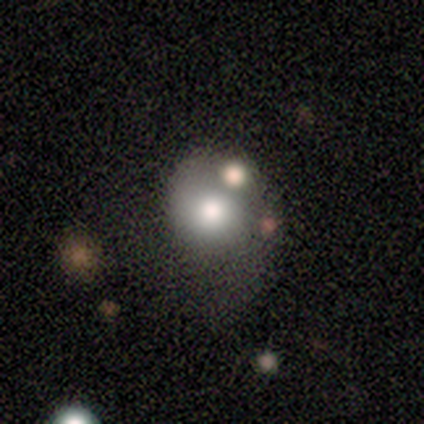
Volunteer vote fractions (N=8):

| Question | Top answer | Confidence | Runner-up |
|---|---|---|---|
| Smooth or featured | smooth | 62% | featured or disk (38%) |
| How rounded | round | 100% | — |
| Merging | none | 38% | minor disturbance (25%) |